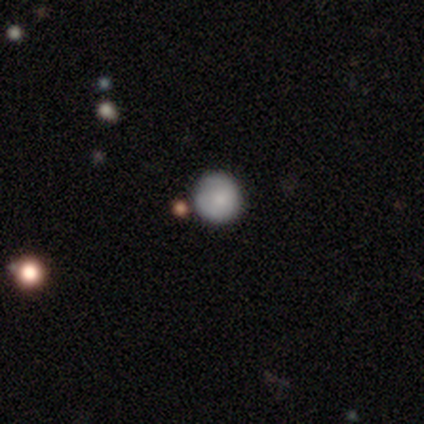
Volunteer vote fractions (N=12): Morphology: type=smooth (83%); roundness=round (90%); merging=none (80%).